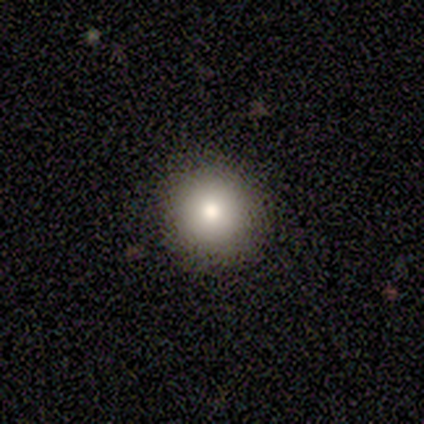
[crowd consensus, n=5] This is clearly a smooth galaxy (80%). How rounded: clearly round (100%). Merging: clearly none (100%).